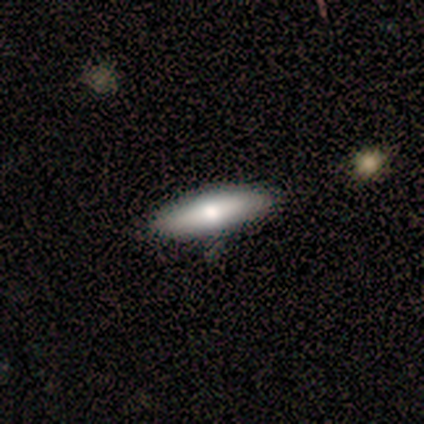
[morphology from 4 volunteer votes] This appears to be a smooth galaxy with no disk features (100%) that is cigar-shaped (75%). Merging: none (75%).